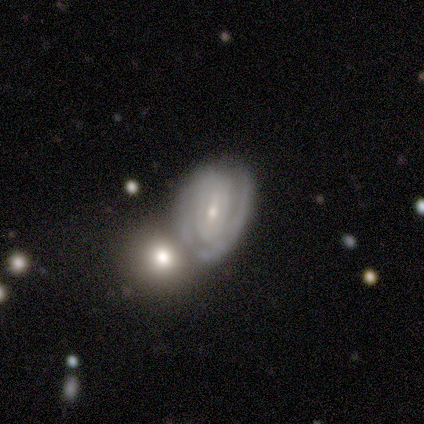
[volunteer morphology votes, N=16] Smooth or featured: featured or disk — 94% (smooth — 6%)
Edge-on disk: no — 100%
Bar: weak — 47% (strong — 27%)
Spiral arms: yes — 100%
Spiral winding: tight — 87% (medium — 13%)
Spiral arm count: 2 — 47% (can't tell — 27%)
Bulge size: moderate — 60% (small — 27%)
Merging: none — 50% (merger — 38%)